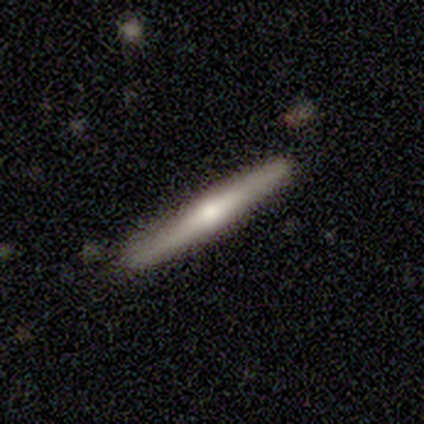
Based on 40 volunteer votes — Overall: featured or disk (48%; smooth 42%). Edge-on disk: yes (95%). Edge-on bulge: rounded (78%). Merging: none (78%).